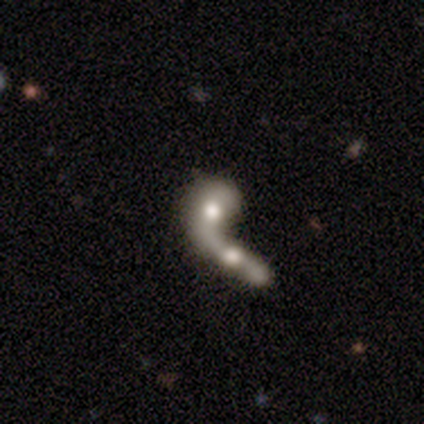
This appears to be a featured or disk galaxy (60%) with no bar (100%), no spiral arms (67%) and a moderate central bulge (67%). Merging: merger (100%).